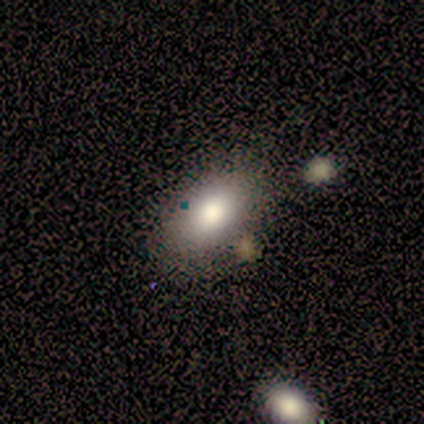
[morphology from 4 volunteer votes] Smooth or featured? 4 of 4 (100%) said smooth. How rounded? 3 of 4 (75%) said in between. Merging? 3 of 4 (75%) said none.